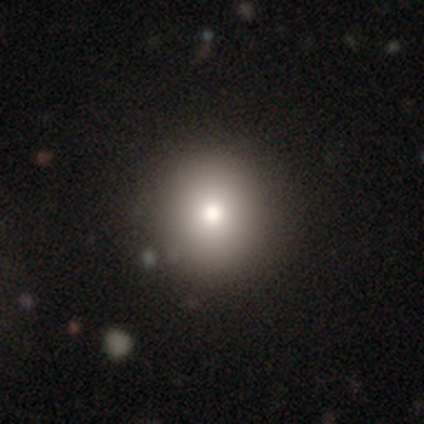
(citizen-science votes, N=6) Smooth or featured: smooth — 100%
How rounded: round — 100%
Merging: none — 100%